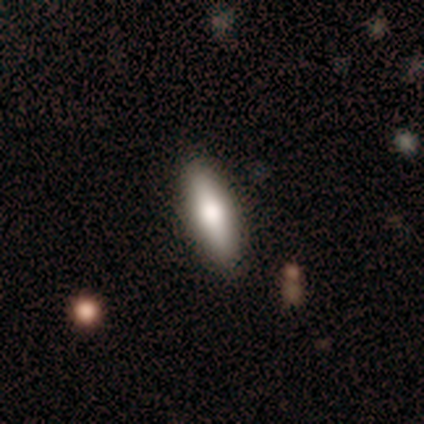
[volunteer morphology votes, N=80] smooth_or_featured: smooth (p=0.79) [alt: featured or disk p=0.19]
how_rounded: in between (p=0.59) [alt: cigar-shaped p=0.40]
merging: none (p=0.41) [alt: minor disturbance p=0.06]